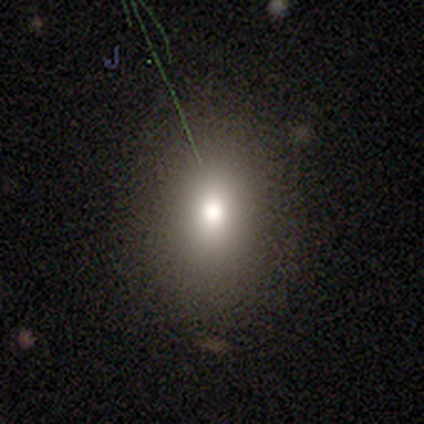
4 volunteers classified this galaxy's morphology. Q: Smooth or featured?
A: smooth (75%); runner-up: featured or disk (25%)
Q: How rounded?
A: round (67%); runner-up: in between (33%)
Q: Merging?
A: none (50%); tied with: minor disturbance (50%)